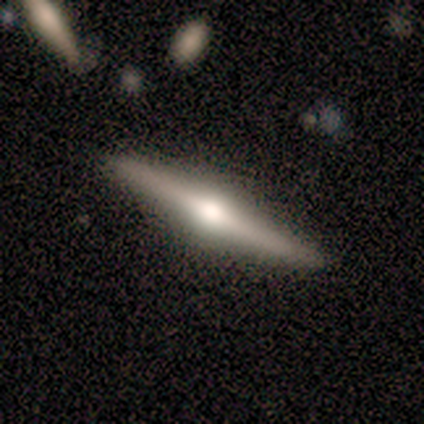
This appears to be a featured or disk galaxy (73%) viewed edge-on (100%) with a rounded central bulge (90%). Merging: none (85%).